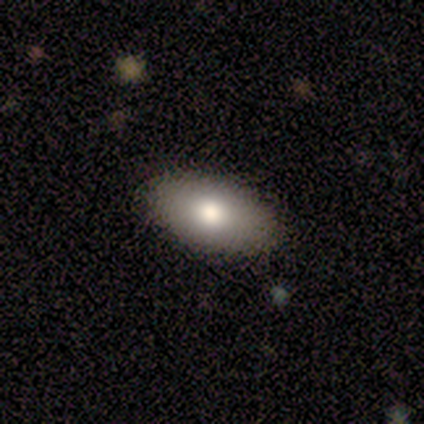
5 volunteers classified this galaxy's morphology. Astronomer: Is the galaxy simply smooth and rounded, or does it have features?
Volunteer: smooth — 60%.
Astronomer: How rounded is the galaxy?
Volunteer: in between — 100%.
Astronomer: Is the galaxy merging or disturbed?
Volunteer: none — 100%.